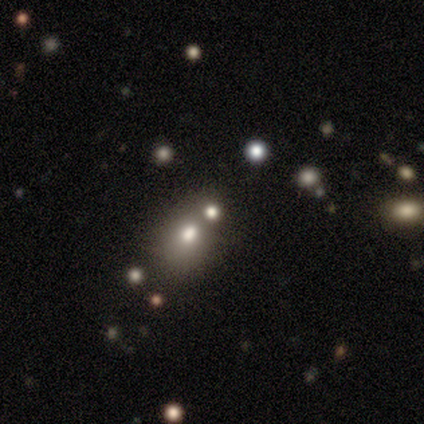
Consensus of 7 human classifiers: smooth-or-featured: smooth: 71% | featured or disk: 14% | star or artifact: 14%
  how-rounded: round: 100% | in between: 0% | cigar-shaped: 0%
  merging: none: 50% | major disturbance: 33% | merger: 17% | minor disturbance: 0%